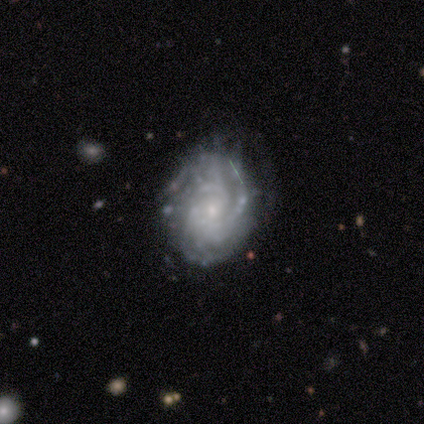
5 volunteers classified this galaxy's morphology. featured or disk 100%, smooth 0%, star or artifact 0%. Down the decision tree: edge-on disk — no (100%); bar — no (80%); spiral arms — yes (100%); spiral arm count — more than 4 (40%, tied with can't tell); spiral winding — tight (100%); bulge size — small (100%); merging — none (60%).